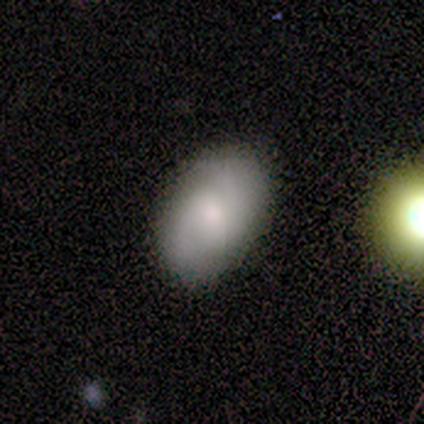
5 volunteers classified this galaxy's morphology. smooth-or-featured: featured or disk: 60% | smooth: 40% | star or artifact: 0%
  disk-edge-on: no: 100% | yes: 0%
    bar: strong: 33% (tied) | weak: 33% (tied) | no: 33% (tied)
    has-spiral-arms: yes: 100% | no: 0%
      spiral-winding: medium: 67% | loose: 33% | tight: 0%
      spiral-arm-count: 2: 100% | 1: 0% | 3: 0% | 4: 0% | more than 4: 0% | can't tell: 0%
    bulge-size: large: 33% (tied) | moderate: 33% (tied) | small: 33% (tied) | dominant: 0% | none: 0%
  merging: none: 80% | major disturbance: 20% | minor disturbance: 0% | merger: 0%